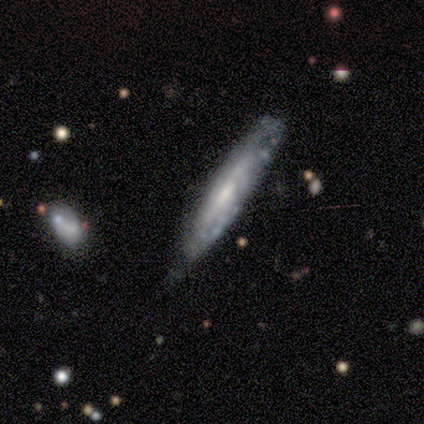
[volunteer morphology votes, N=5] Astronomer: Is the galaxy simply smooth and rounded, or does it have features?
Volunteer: featured or disk — 100%.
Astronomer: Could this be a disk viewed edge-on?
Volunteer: no — 80%.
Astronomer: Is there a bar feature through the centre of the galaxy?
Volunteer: no — 75%.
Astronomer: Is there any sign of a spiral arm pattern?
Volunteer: yes — 50%, tied with no at 50%.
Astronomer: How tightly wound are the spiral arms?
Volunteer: tight — 50%, tied with loose at 50%.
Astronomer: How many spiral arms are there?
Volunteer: can't tell — 100%.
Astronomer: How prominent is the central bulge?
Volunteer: small — 100%.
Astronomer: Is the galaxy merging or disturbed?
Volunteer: minor disturbance — 60% (runner-up: none, 40%).